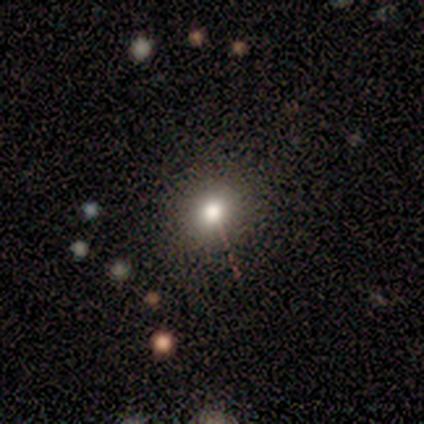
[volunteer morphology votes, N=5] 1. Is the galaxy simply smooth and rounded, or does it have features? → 100% smooth, 0% featured or disk, 0% star or artifact.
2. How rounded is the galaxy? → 60% in between, 40% round, 0% cigar-shaped.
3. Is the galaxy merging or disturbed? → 100% none, 0% minor disturbance, 0% major disturbance, 0% merger.